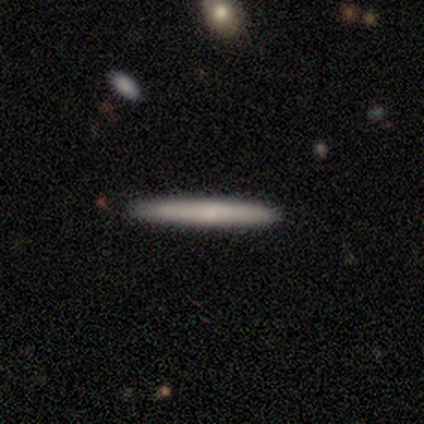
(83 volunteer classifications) smooth_or_featured: smooth (p=0.67) [alt: featured or disk p=0.27]
how_rounded: cigar-shaped (p=0.93) [alt: in between p=0.07]
merging: none (p=0.87) [alt: minor disturbance p=0.08]